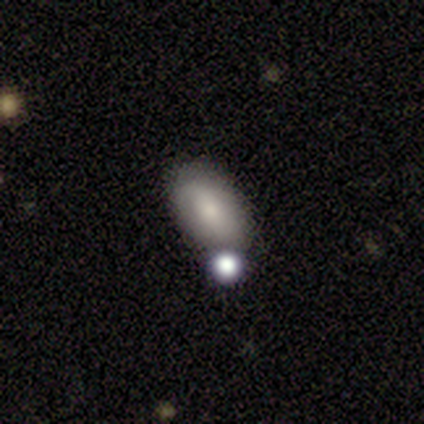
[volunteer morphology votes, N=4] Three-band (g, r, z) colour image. It shows a smooth galaxy with no disk features (75%) that is in between round and cigar-shaped (100%). Merging: none (67%).